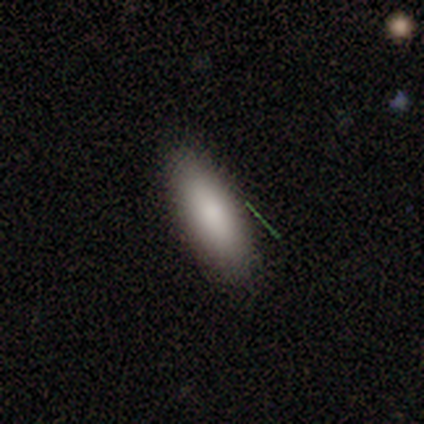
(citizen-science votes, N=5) Smooth or featured? smooth (60%)
How rounded? in between (67%)
Merging? none (67%)